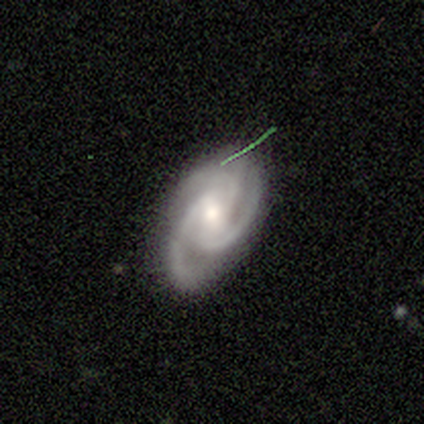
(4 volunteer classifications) Smooth or featured?
  - featured or disk: 100% *
  - smooth: 0%
  - star or artifact: 0%
Edge-on disk?
  - no: 100% *
  - yes: 0%
Bar?
  - no: 75% *
  - weak: 25%
  - strong: 0%
Spiral arms?
  - yes: 100% *
  - no: 0%
Spiral winding?
  - medium: 100% *
  - tight: 0%
  - loose: 0%
Spiral arm count?
  - 3: 75% *
  - 2: 25%
  - 1: 0%
  - 4: 0%
  - more than 4: 0%
  - can't tell: 0%
Bulge size?
  - moderate: 75% *
  - small: 25%
  - dominant: 0%
  - large: 0%
  - none: 0%
Merging?
  - none: 75% *
  - minor disturbance: 25%
  - major disturbance: 0%
  - merger: 0%